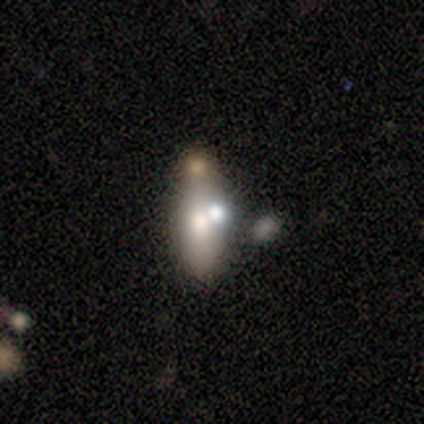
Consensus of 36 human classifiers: smooth_or_featured: smooth (p=0.67) [alt: featured or disk p=0.22]
how_rounded: in between (p=0.54) [alt: cigar-shaped p=0.42]
merging: none (p=0.41) [alt: minor disturbance p=0.28]